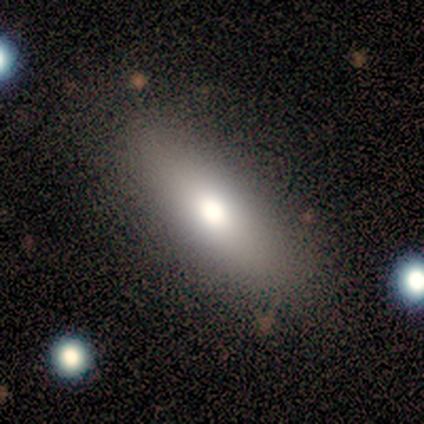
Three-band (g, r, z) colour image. It shows a smooth galaxy with no disk features (67%) that is in between round and cigar-shaped (50%, tied with cigar-shaped). Merging: none (100%).